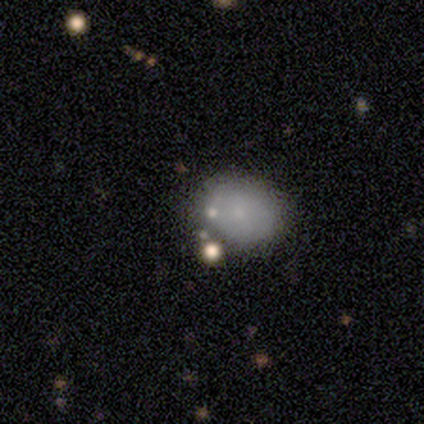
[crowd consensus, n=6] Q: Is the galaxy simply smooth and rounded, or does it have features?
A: smooth — 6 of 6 (100%).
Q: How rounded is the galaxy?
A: round — 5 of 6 (83%).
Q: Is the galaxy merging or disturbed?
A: minor disturbance — 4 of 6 (67%).